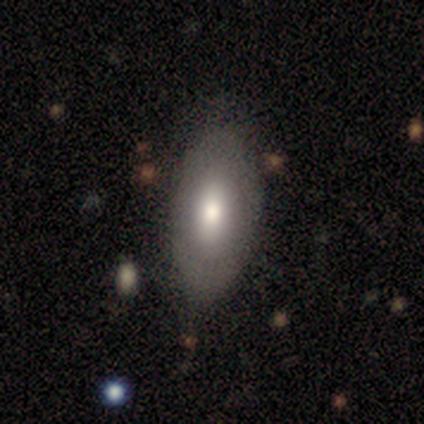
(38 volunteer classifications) Smooth or featured?
  - smooth: 68% *
  - featured or disk: 21%
  - star or artifact: 11%
How rounded?
  - in between: 85% *
  - round: 8%
  - cigar-shaped: 8%
Merging?
  - none: 65% *
  - minor disturbance: 12%
  - major disturbance: 0%
  - merger: 0%